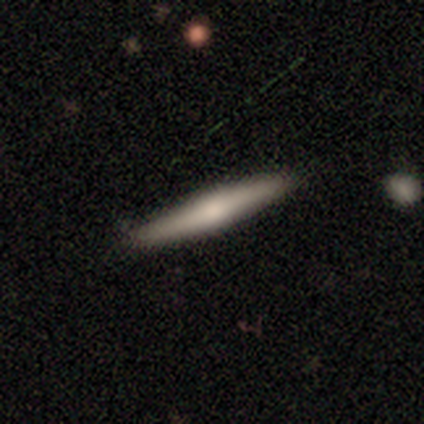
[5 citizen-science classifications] Smooth or featured? 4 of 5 (80%) said featured or disk. Edge-on disk? 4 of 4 (100%) said yes. Edge-on bulge? 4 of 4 (100%) said rounded. Merging? 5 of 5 (100%) said none.